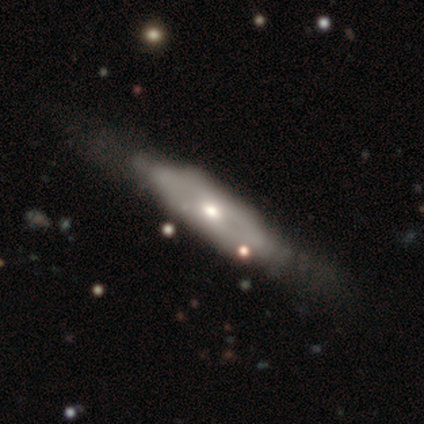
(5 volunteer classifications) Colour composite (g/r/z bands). It shows a featured or disk galaxy (80%) viewed edge-on (75%) with a boxy central bulge (67%). Merging: none (40%, tied with minor disturbance).